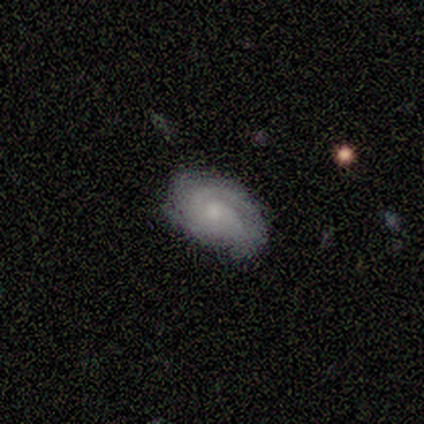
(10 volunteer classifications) Smooth or featured: featured or disk — 80% (smooth — 20%)
Edge-on disk: no — 100%
Bar: no — 62% (weak — 38%)
Spiral arms: yes — 100%
Spiral winding: tight — 62% (medium — 25%)
Spiral arm count: 2 — 38% (3 — 25%)
Bulge size: moderate — 50% (small — 38%)
Merging: none — 80% (minor disturbance — 20%)